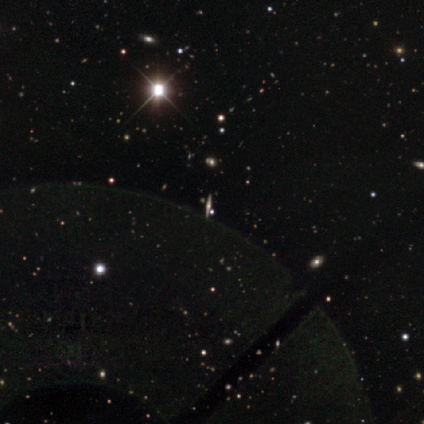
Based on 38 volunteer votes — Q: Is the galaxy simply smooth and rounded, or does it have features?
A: featured or disk — 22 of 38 (58%).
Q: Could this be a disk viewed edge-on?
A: yes — 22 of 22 (100%).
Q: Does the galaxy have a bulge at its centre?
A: rounded — 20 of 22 (91%).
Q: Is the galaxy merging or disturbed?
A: none — 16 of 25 (64%).